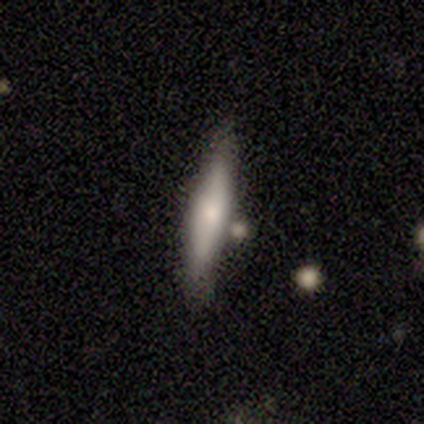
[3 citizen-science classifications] smooth_or_featured: smooth (p=0.67) [alt: star or artifact p=0.33]
how_rounded: cigar-shaped (p=1.00)
merging: none (p=0.50) [tied with: merger p=0.50]